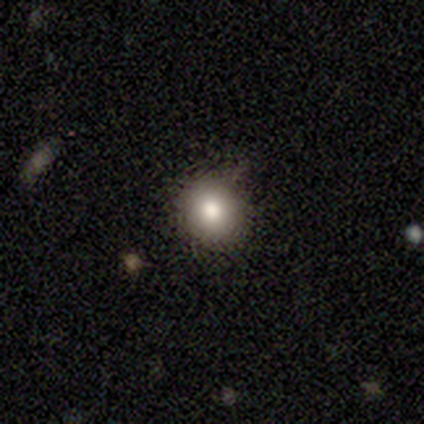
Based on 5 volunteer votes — A smooth galaxy with no disk features (60%) that is round (100%). Merging: none (100%).